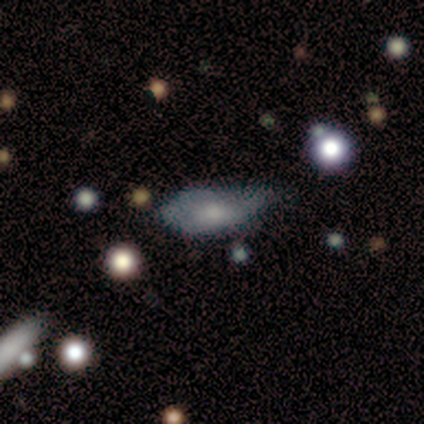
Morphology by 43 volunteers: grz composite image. It shows a smooth galaxy with no disk features (56%) that is in between round and cigar-shaped (75%). Merging: minor disturbance (39%).